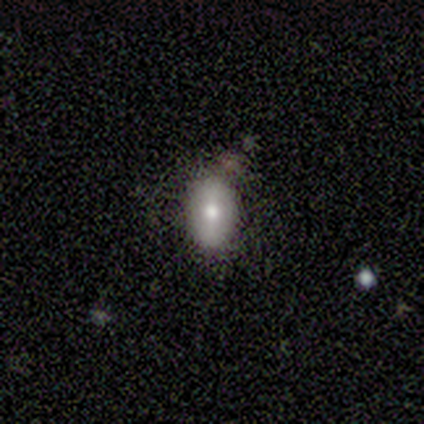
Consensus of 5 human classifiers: A featured or disk galaxy (40%, tied with star or artifact) with a weak bar (50%, tied with no), no spiral arms (100%) and a moderate central bulge (100%). Merging: minor disturbance (67%).